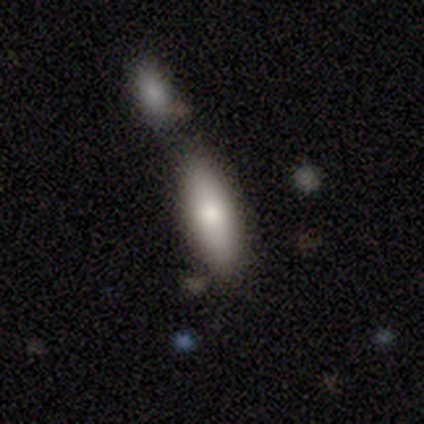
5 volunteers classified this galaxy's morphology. Smooth or featured? 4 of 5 (80%) said smooth. How rounded? 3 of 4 (75%) said in between. Merging? 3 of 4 (75%) said none.